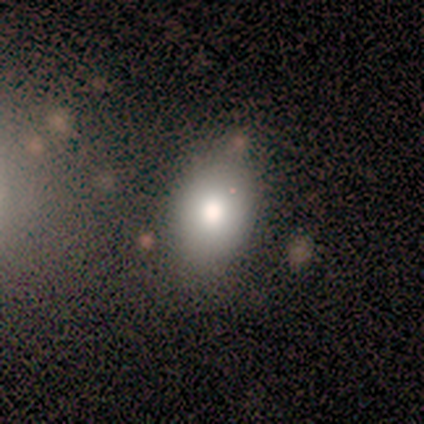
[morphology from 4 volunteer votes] Q: Smooth or featured?
A: smooth (50%); runner-up: featured or disk (25%)
Q: How rounded?
A: in between (100%)
Q: Merging?
A: none (100%)